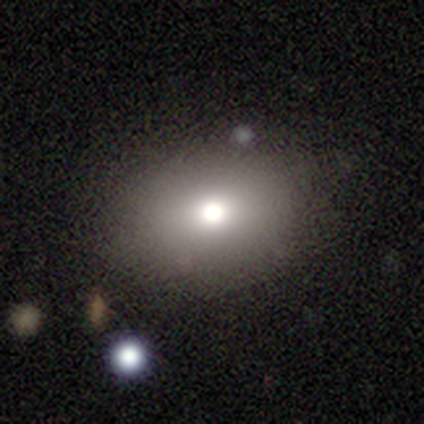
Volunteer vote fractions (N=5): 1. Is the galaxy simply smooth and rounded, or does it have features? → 40% smooth (tied), 40% star or artifact (tied), 20% featured or disk.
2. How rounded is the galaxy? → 100% in between, 0% round, 0% cigar-shaped.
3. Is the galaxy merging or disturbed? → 33% minor disturbance (tied), 33% major disturbance (tied), 33% merger (tied), 0% none.